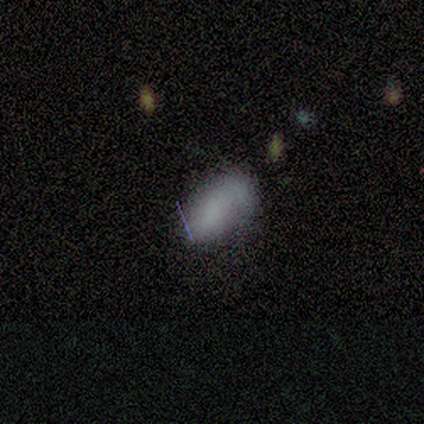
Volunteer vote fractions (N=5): A smooth galaxy with no disk features (100%) that is in between round and cigar-shaped (100%). Merging: none (80%).